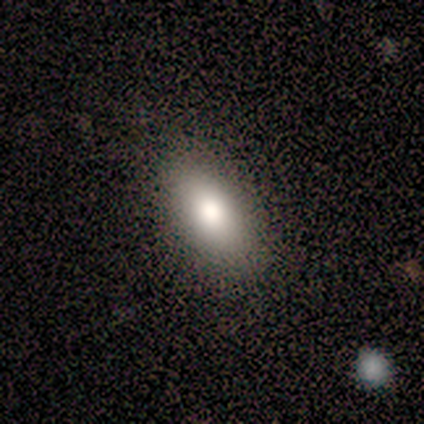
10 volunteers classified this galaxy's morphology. type=smooth (60%); roundness=in between (100%); merging=none (100%).